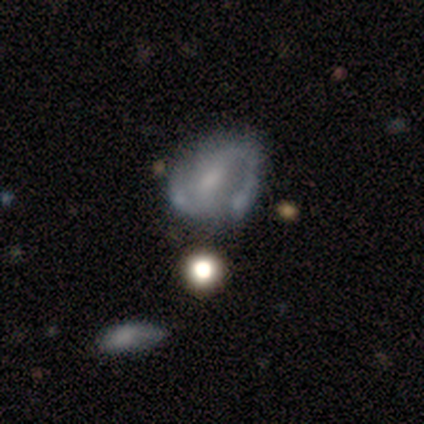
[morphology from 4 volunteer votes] type=smooth (50%, tied with featured or disk); roundness=round (100%); merging=none (50%).